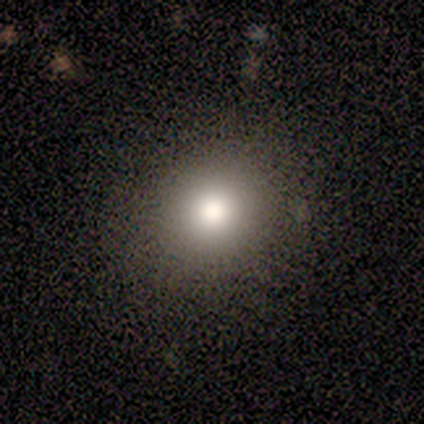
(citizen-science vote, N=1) smooth 100%, featured or disk 0%, star or artifact 0%. Down the decision tree: how rounded — round (100%); merging — none (100%).